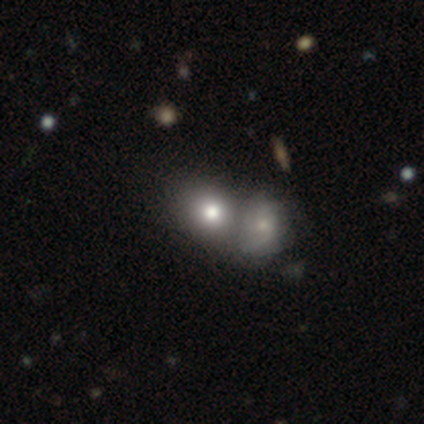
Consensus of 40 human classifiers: Smooth or featured? smooth (68%)
How rounded? round (63%)
Merging? merger (76%)